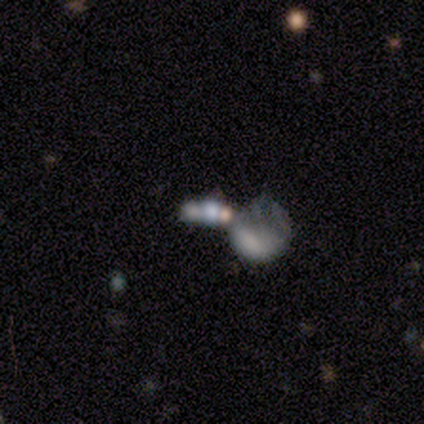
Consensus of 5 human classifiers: Smooth or featured? 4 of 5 (80%) said featured or disk. Edge-on disk? 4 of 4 (100%) said no. Bar? 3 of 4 (75%) said no. Spiral arms? 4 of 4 (100%) said no. Bulge size? 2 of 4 (50%) said none. Merging? 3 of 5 (60%) said merger.